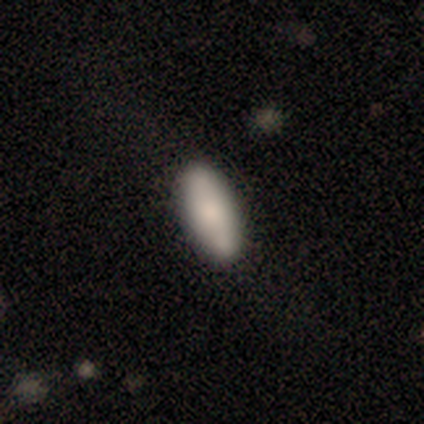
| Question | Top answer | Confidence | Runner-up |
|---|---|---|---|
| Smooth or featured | smooth | 84% | featured or disk (8%) |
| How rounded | in between | 74% | cigar-shaped (26%) |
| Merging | none | 82% | minor disturbance (15%) |